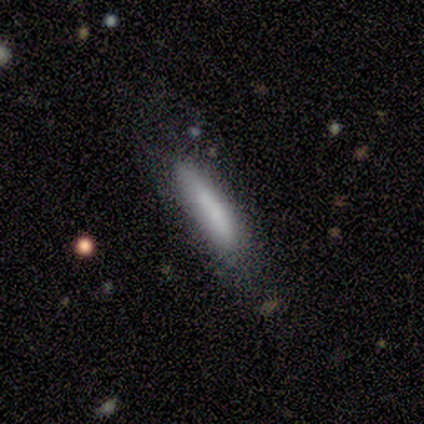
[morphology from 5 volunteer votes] smooth-or-featured: smooth: 80% | featured or disk: 20% | star or artifact: 0%
  how-rounded: cigar-shaped: 100% | round: 0% | in between: 0%
  merging: none: 100% | minor disturbance: 0% | major disturbance: 0% | merger: 0%